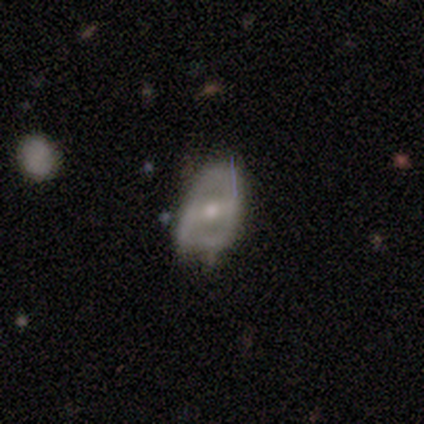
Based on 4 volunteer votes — Q: Smooth or featured?
A: featured or disk (50%); runner-up: smooth (25%)
Q: Edge-on disk?
A: no (100%)
Q: Bar?
A: weak (50%); tied with: no (50%)
Q: Spiral arms?
A: no (100%)
Q: Bulge size?
A: moderate (100%)
Q: Merging?
A: minor disturbance (67%); runner-up: major disturbance (33%)